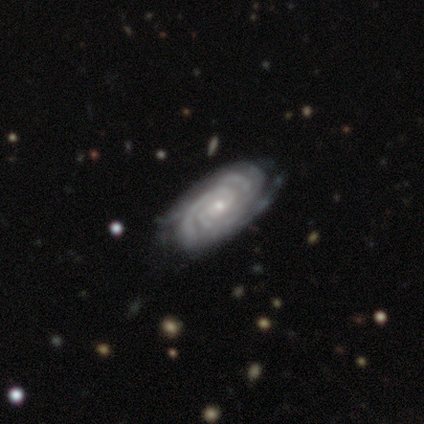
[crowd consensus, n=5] A featured or disk galaxy (100%) with no bar (100%), 2 (50%, tied with 4) tight (100%) spiral arms (100%) and a moderate central bulge (50%, tied with small).

Vote fractions:
- Smooth or featured? featured or disk: 100% / smooth: 0% / star or artifact: 0%
- Edge-on disk? no: 80% / yes: 20%
- Bar? no: 100% / strong: 0% / weak: 0%
- Spiral arms? yes: 100% / no: 0%
- Spiral winding? tight: 100% / medium: 0% / loose: 0%
- Spiral arm count? 2: 50% (tied) / 4: 50% (tied) / 1: 0% / 3: 0% / more than 4: 0% / can't tell: 0%
- Bulge size? moderate: 50% (tied) / small: 50% (tied) / dominant: 0% / large: 0% / none: 0%
- Merging? none: 100% / minor disturbance: 0% / major disturbance: 0% / merger: 0%